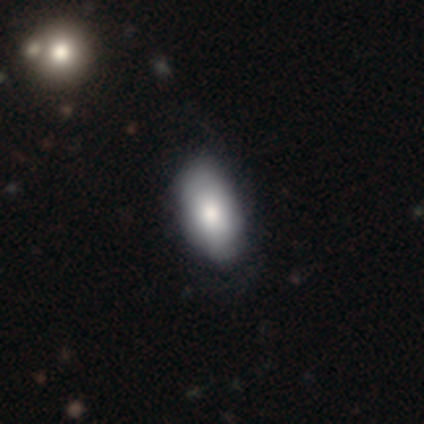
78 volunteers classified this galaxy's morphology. type=smooth (83%); roundness=in between (95%); merging=none (36%).